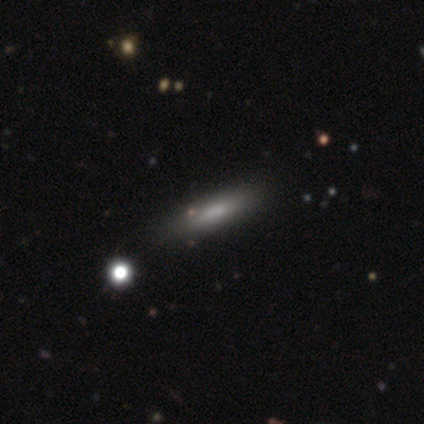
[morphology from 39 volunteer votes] This appears to be a smooth galaxy with no disk features (72%) that is cigar-shaped (82%). Merging: none (55%).